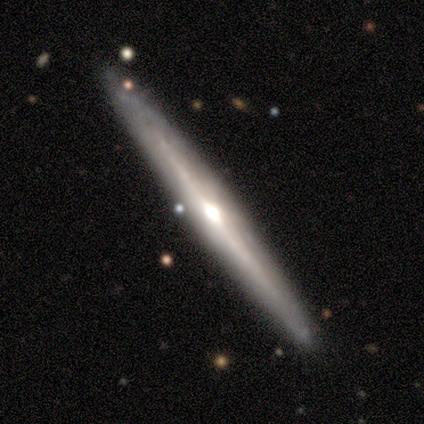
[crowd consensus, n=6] smooth-or-featured: featured or disk: 83% | smooth: 17% | star or artifact: 0%
  disk-edge-on: yes: 100% | no: 0%
    edge-on-bulge: rounded: 100% | boxy: 0% | none: 0%
  merging: none: 67% | minor disturbance: 17% | merger: 17% | major disturbance: 0%